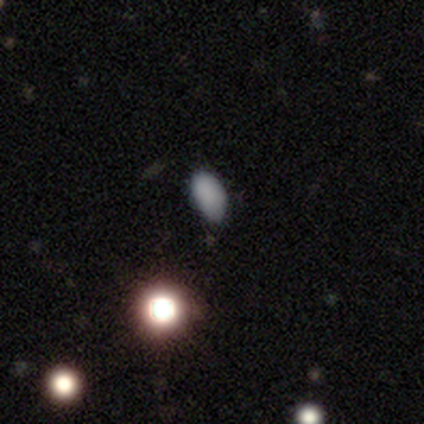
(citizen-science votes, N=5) Morphology: type=smooth (100%); roundness=in between (100%); merging=none (100%).